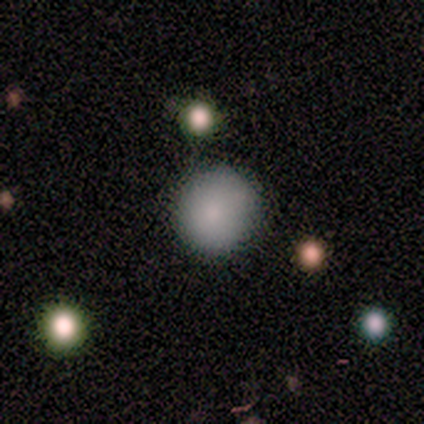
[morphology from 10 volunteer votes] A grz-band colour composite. It shows a smooth galaxy with no disk features (90%) that is round (89%). Merging: none (70%).